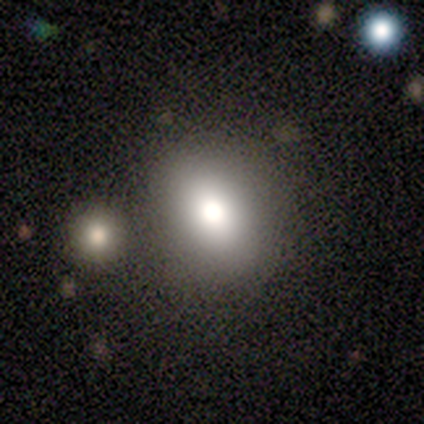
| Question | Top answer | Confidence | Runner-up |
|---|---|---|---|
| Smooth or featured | smooth | 83% | featured or disk (14%) |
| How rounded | round | 50% | in between (48%) |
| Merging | none | 75% | minor disturbance (12%) |